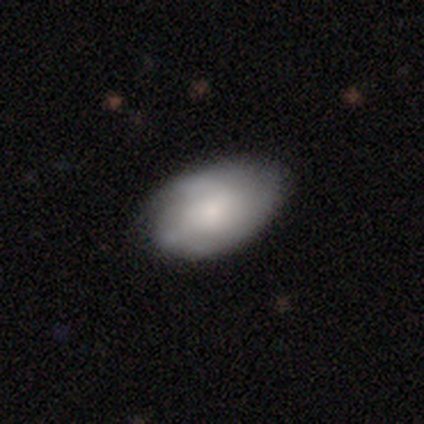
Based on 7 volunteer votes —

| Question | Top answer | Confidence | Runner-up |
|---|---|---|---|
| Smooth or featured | smooth | 100% | — |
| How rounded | in between | 100% | — |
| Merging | none | 57% | minor disturbance (29%) |